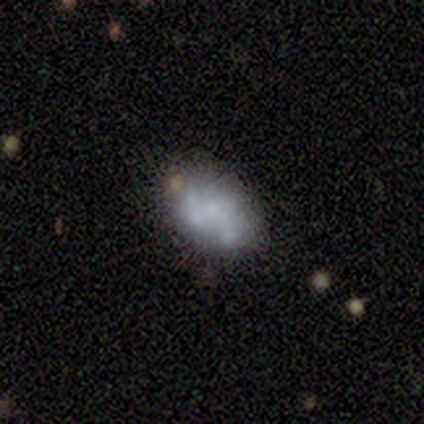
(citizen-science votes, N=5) Smooth or featured: featured or disk — 80% (smooth — 20%)
Edge-on disk: no — 100%
Bar: no — 100%
Spiral arms: no — 100%
Bulge size: none — 75% (large — 25%)
Merging: none — 80% (minor disturbance — 20%)